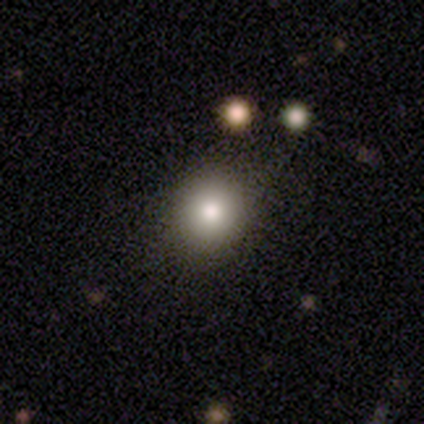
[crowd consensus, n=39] Morphology: type=smooth (87%); roundness=round (85%); merging=none (69%).